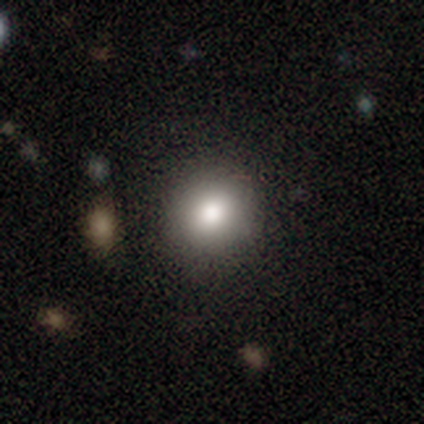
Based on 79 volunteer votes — A smooth galaxy with no disk features (85%) that is round (88%). Merging: none (41%).